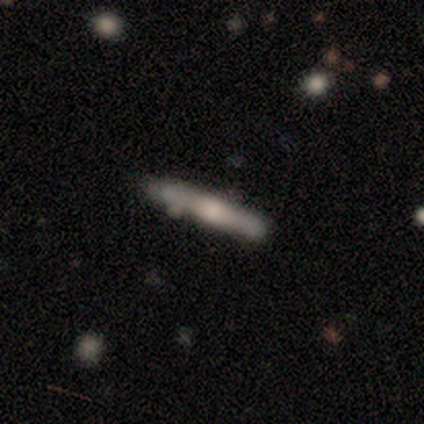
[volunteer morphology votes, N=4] smooth-or-featured: smooth: 100% | featured or disk: 0% | star or artifact: 0%
  how-rounded: cigar-shaped: 100% | round: 0% | in between: 0%
  merging: none: 100% | minor disturbance: 0% | major disturbance: 0% | merger: 0%